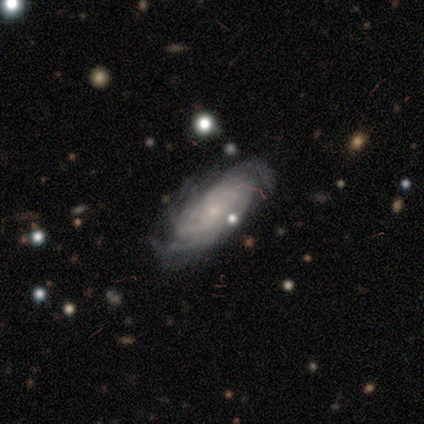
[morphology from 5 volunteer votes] type=featured or disk (80%); edge-on=no (100%); bar=no (75%); spiral arms=yes (100%); winding=tight (75%); arm count=3 (50%); bulge=small (100%); merging=none (80%).